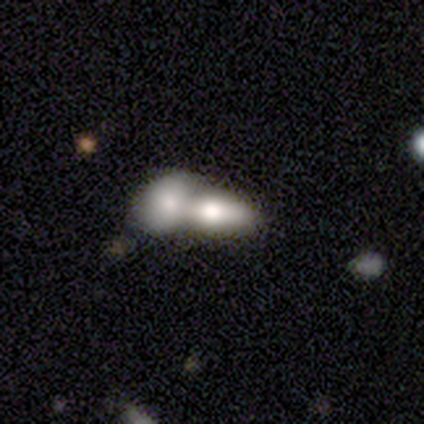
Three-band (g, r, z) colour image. It shows a smooth galaxy with no disk features (71%) that is in between round and cigar-shaped (93%). Merging: merger (92%).